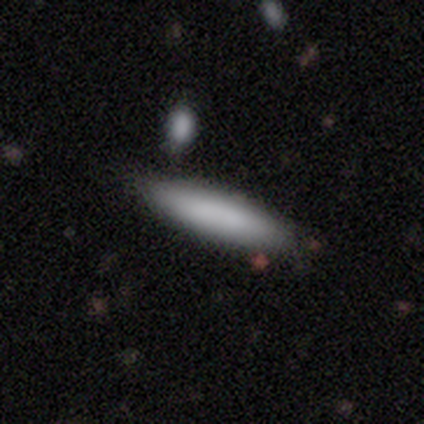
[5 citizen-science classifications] This is clearly a smooth galaxy (80%). How rounded: likely cigar-shaped (75%). Merging: likely none (60%).